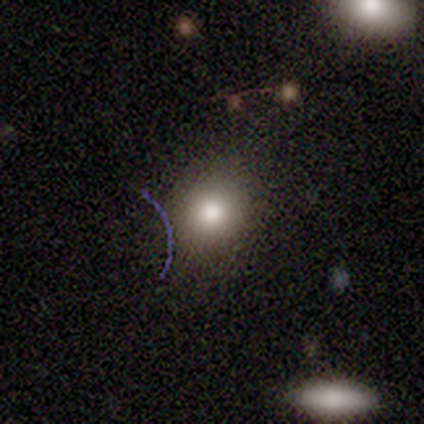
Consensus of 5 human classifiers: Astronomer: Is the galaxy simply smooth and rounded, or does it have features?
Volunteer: smooth — 80%.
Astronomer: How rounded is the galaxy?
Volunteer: round — 100%.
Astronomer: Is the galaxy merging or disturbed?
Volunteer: none — 75%.